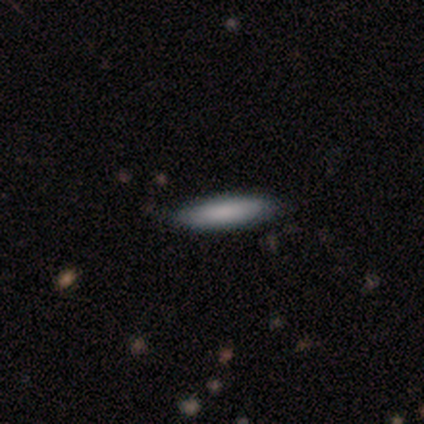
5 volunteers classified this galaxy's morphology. Smooth or featured? smooth (80%)
How rounded? cigar-shaped (75%)
Merging? none (75%)